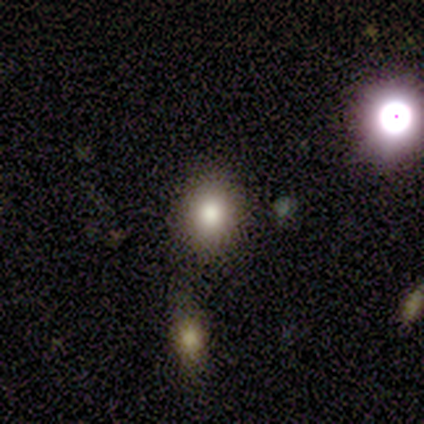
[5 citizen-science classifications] This is clearly a smooth galaxy (80%). How rounded: likely round (75%). Merging: clearly none (100%).